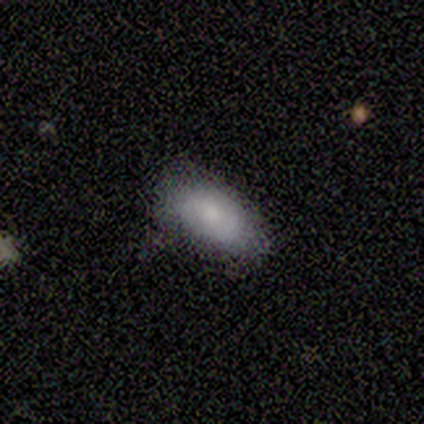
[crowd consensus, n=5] smooth-or-featured: smooth: 100% | featured or disk: 0% | star or artifact: 0%
  how-rounded: in between: 80% | round: 20% | cigar-shaped: 0%
  merging: none: 80% | minor disturbance: 20% | major disturbance: 0% | merger: 0%